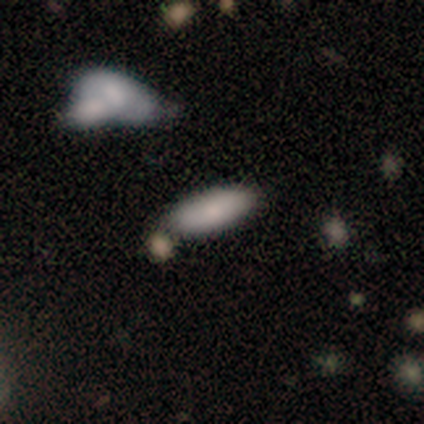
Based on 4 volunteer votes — smooth-or-featured: smooth: 75% | featured or disk: 25% | star or artifact: 0%
  how-rounded: in between: 100% | round: 0% | cigar-shaped: 0%
  merging: none: 50% | minor disturbance: 25% | merger: 25% | major disturbance: 0%